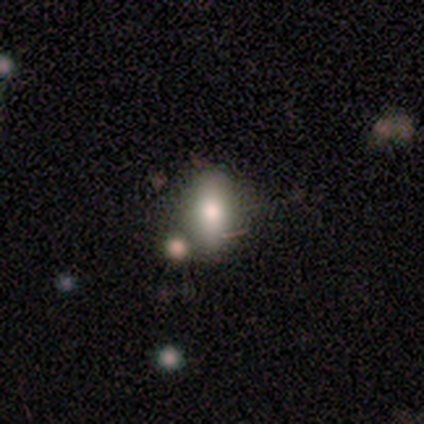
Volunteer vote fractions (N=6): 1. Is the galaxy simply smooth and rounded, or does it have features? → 100% smooth, 0% featured or disk, 0% star or artifact.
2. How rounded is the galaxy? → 50% in between (tied), 50% cigar-shaped (tied), 0% round.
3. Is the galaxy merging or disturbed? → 100% none, 0% minor disturbance, 0% major disturbance, 0% merger.